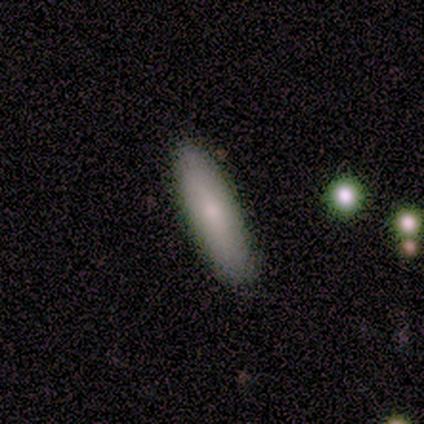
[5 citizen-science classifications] Overall: smooth (100%). How rounded: cigar-shaped (60%; in between 40%). Merging: none (100%).